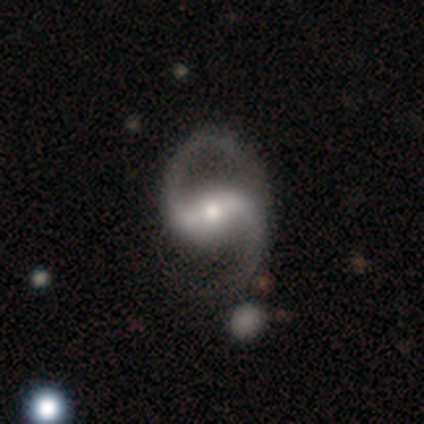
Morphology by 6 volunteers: Volunteers were most divided on "bulge size" (2-way tie): moderate: 50%, small: 50%, dominant: 0%, large: 0%, none: 0%. More confident: smooth or featured — featured or disk (100%); edge-on disk — no (100%); spiral arm count — 2 (100%); bar — strong (83%); spiral arms — yes (83%); spiral winding — loose (80%); merging — none (67%).